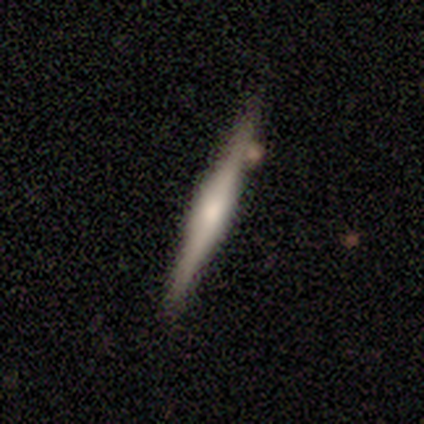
Overall: featured or disk (59%; smooth 36%). Edge-on disk: yes (96%). Edge-on bulge: rounded (68%). Merging: none (81%).